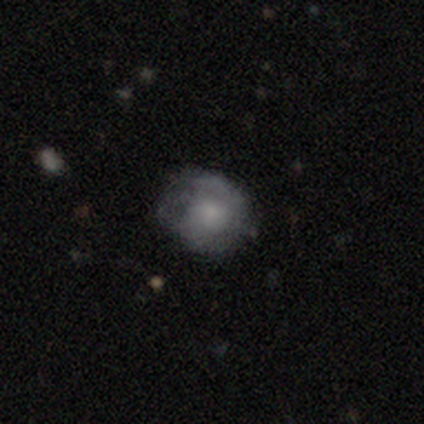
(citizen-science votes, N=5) Smooth or featured? smooth (60%)
How rounded? round (67%)
Merging? none (75%)